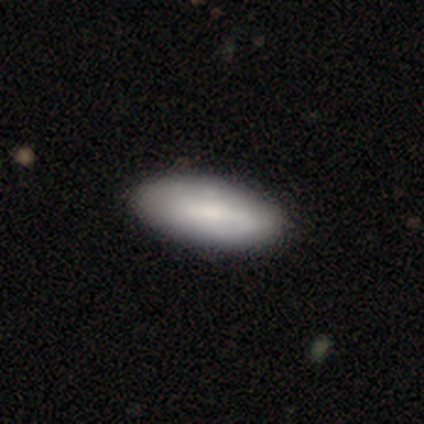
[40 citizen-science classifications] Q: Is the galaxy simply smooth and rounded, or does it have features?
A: smooth — 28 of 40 (70%).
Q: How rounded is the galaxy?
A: in between — 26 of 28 (93%).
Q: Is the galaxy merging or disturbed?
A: none — 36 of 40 (90%).